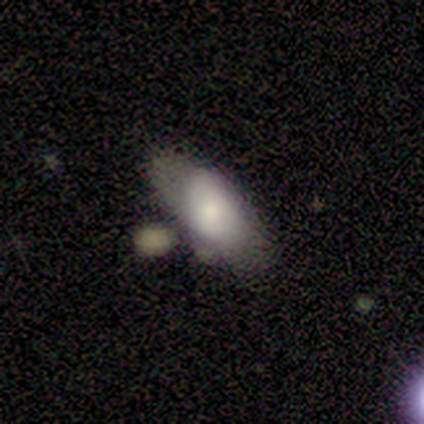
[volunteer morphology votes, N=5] This appears to be a featured or disk galaxy (60%) with a weak bar (50%, tied with no), 2 (100%) tight (100%) spiral arms (50%, tied with no) and a small central bulge (100%). Merging: none (50%).